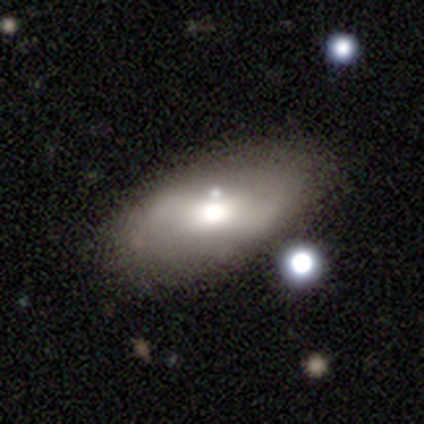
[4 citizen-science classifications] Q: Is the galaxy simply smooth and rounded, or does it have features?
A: smooth — 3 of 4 (75%).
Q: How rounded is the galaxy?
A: in between — 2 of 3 (67%).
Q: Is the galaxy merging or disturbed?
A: none — 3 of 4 (75%).